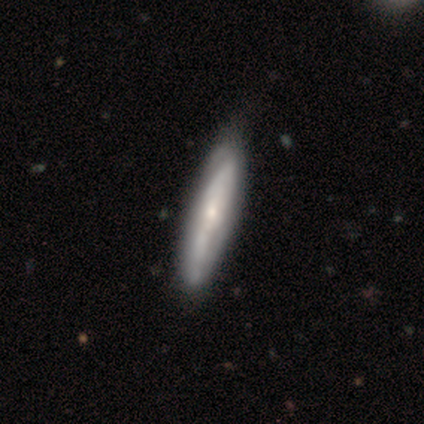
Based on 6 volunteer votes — smooth 67%, featured or disk 33%, star or artifact 0%. Down the decision tree: how rounded — cigar-shaped (75%); merging — none (67%).